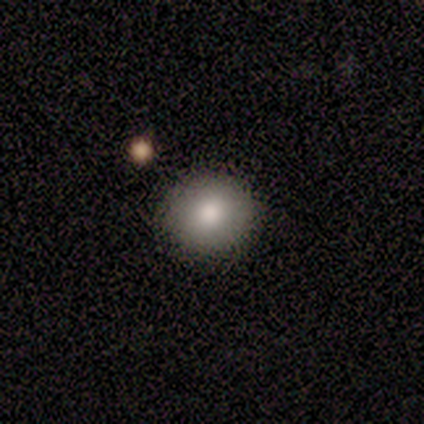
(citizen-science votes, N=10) This is clearly a smooth galaxy (80%). How rounded: likely round (75%). Merging: clearly none (88%).